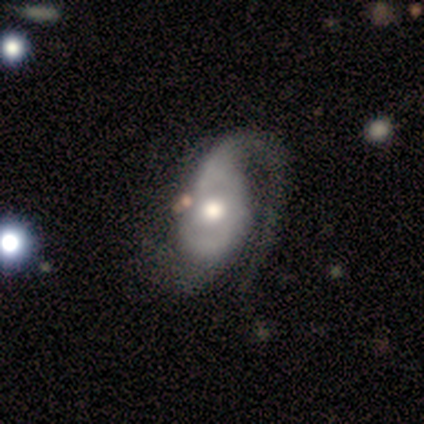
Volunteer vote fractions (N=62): This appears to be a featured or disk galaxy (92%) with no bar (73%), 1 (45%, tied with 2) medium (45%) spiral arms (95%) and a moderate central bulge (70%). Merging: none (41%).